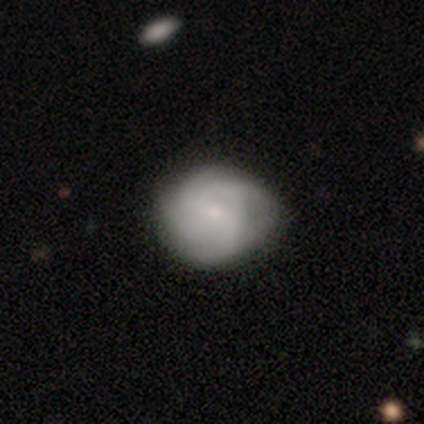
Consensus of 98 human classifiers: smooth-or-featured: featured or disk: 65% | smooth: 31% | star or artifact: 4%
  disk-edge-on: no: 100% | yes: 0%
    bar: weak: 53% | no: 42% | strong: 5%
    has-spiral-arms: yes: 89% | no: 11%
      spiral-winding: tight: 40% | medium: 39% | loose: 21%
      spiral-arm-count: 4: 33% (tied) | can't tell: 33% (tied) | 2: 19% | 3: 14% | 1: 0% | more than 4: 0%
    bulge-size: small: 72% | moderate: 20% | none: 5% | large: 3% | dominant: 0%
  merging: none: 74% | minor disturbance: 21% | major disturbance: 4% | merger: 0%